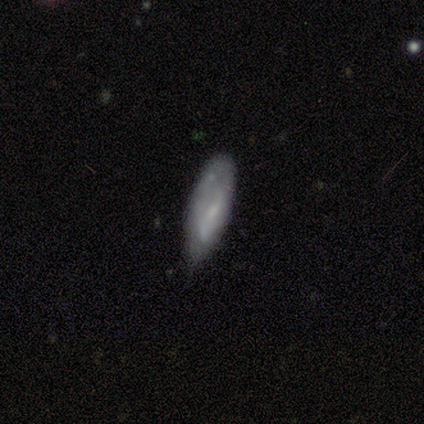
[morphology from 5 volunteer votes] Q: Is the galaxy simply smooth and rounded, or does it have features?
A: smooth — 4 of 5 (80%).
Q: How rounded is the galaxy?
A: in between — 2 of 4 (50%, tied with cigar-shaped).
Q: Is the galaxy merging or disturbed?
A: none — 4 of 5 (80%).